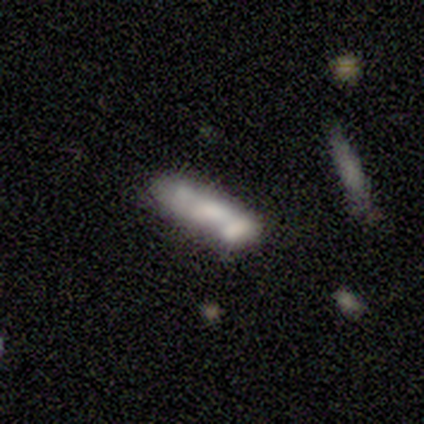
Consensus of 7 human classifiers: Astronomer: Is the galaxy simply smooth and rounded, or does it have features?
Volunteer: smooth — 86%.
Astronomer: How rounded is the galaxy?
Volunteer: in between — 50% (runner-up: cigar-shaped, 33%).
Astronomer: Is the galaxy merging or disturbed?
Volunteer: none — 57%.